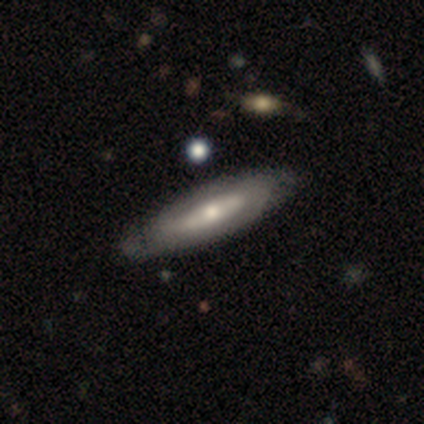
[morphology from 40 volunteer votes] type=featured or disk (55%); edge-on=no (64%); bar=no (50%); spiral arms=no (57%); bulge=moderate (71%); merging=none (51%).